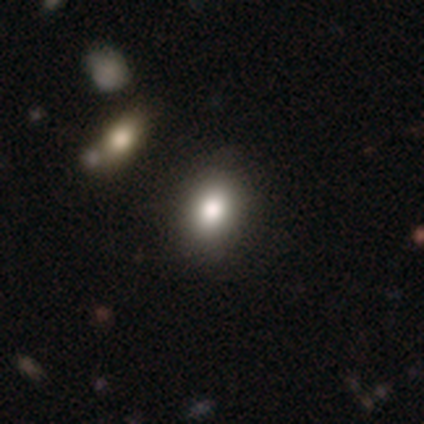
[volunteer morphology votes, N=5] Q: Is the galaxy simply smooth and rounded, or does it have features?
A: smooth — 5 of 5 (100%).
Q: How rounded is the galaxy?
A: in between — 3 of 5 (60%).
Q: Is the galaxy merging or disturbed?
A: none — 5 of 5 (100%).